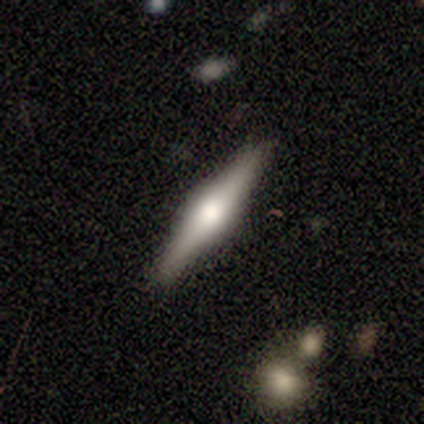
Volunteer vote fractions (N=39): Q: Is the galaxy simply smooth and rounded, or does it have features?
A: featured or disk — 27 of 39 (69%).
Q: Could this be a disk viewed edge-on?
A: yes — 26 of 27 (96%).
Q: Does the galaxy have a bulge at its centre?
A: rounded — 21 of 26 (81%).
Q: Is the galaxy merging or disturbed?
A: none — 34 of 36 (94%).